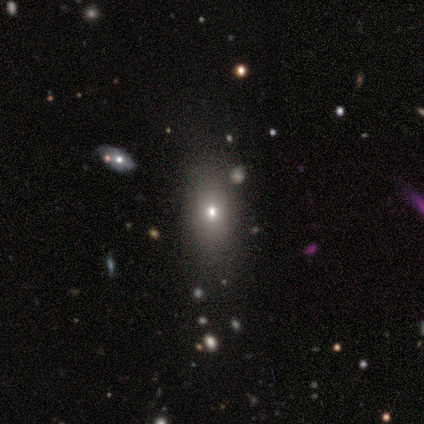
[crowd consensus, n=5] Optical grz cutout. It shows a smooth galaxy with no disk features (60%) that is in between round and cigar-shaped (100%). Merging: none (100%).